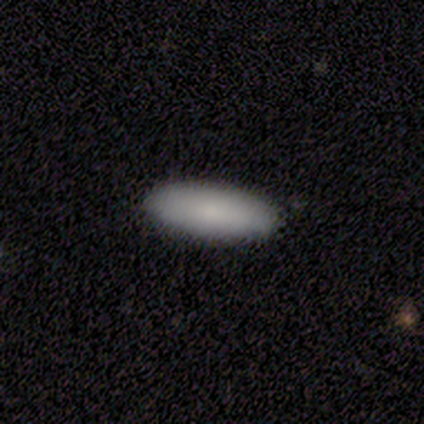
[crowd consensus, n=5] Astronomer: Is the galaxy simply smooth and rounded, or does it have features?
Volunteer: smooth — 80%.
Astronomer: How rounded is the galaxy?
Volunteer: in between — 50%, tied with cigar-shaped at 50%.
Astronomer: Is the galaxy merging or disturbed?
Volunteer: none — 80%.